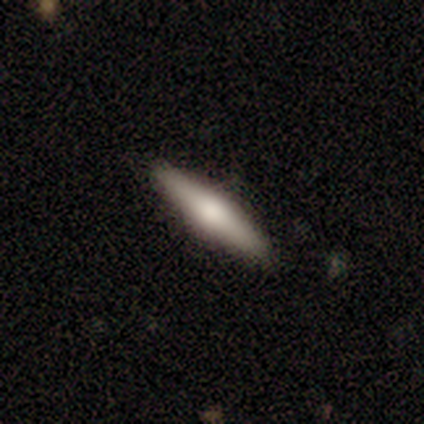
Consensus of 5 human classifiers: Overall: featured or disk (80%). Edge-on disk: yes (100%). Edge-on bulge: rounded (100%). Merging: none (100%).